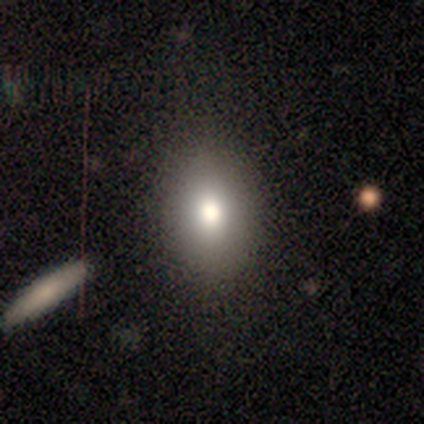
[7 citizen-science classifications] Q: Smooth or featured?
A: smooth (71%); runner-up: star or artifact (29%)
Q: How rounded?
A: round (60%); runner-up: in between (40%)
Q: Merging?
A: none (80%); runner-up: minor disturbance (20%)